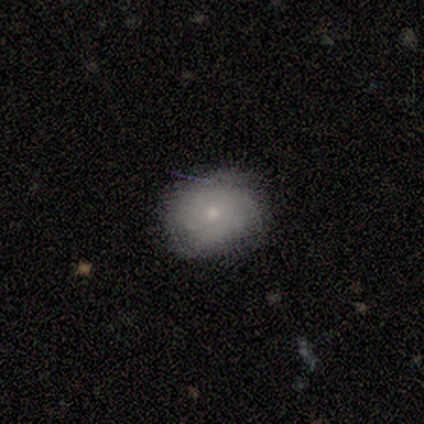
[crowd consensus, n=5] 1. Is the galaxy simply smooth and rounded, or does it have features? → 60% smooth, 20% featured or disk, 20% star or artifact.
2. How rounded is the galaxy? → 100% round, 0% in between, 0% cigar-shaped.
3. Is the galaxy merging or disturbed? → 75% none, 25% minor disturbance, 0% major disturbance, 0% merger.